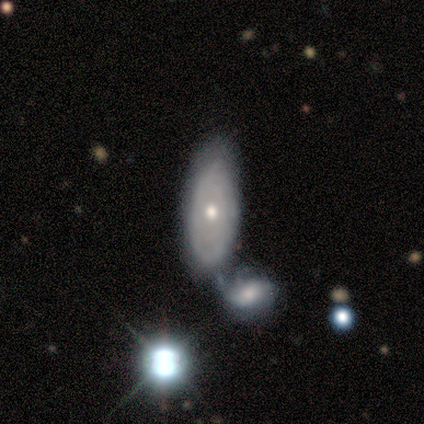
Q: Smooth or featured?
A: smooth (50%); tied with: featured or disk (50%)
Q: How rounded?
A: in between (100%)
Q: Merging?
A: none (25%); tied with: minor disturbance (25%); major disturbance (25%); merger (25%)